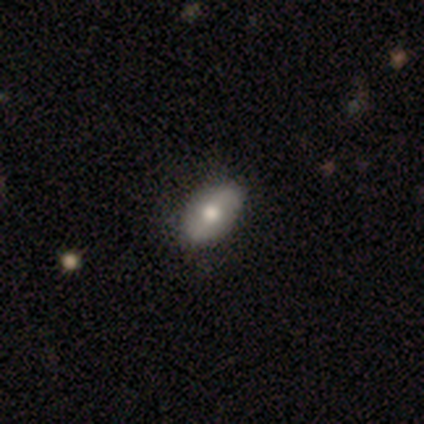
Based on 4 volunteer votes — Smooth or featured: smooth — 100%
How rounded: in between — 100%
Merging: none — 100%